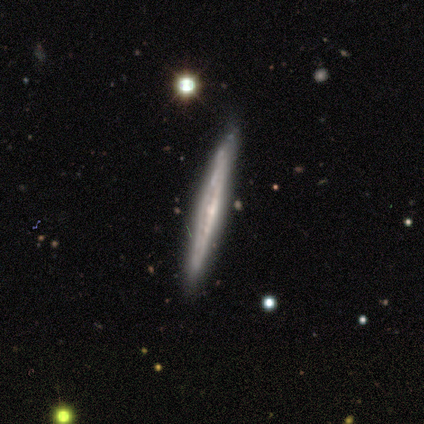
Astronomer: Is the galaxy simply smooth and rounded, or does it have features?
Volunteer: featured or disk — 100%.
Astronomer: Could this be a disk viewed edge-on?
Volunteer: yes — 60% (runner-up: no, 40%).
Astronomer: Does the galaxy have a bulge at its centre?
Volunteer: none — 67%.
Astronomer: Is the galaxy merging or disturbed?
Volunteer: minor disturbance — 60% (runner-up: none, 40%).